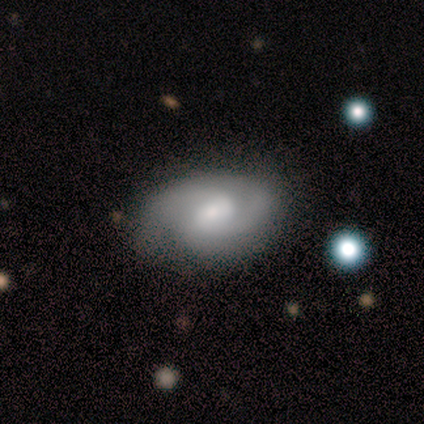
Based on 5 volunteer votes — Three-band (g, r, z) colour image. It shows a featured or disk galaxy (80%) with a weak bar (50%), 2 (67%) tight (67%) spiral arms (75%) and a moderate central bulge (75%). Merging: none (100%).